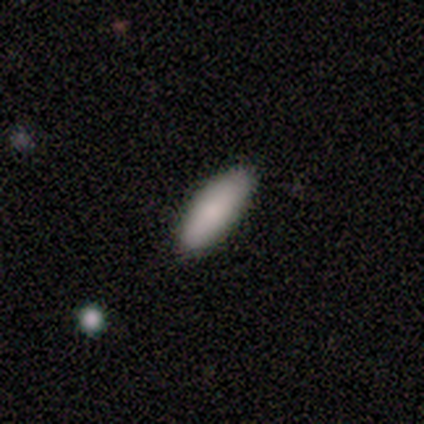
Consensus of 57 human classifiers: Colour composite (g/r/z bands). It shows a smooth galaxy with no disk features (89%) that is in between round and cigar-shaped (75%). Merging: none (96%).